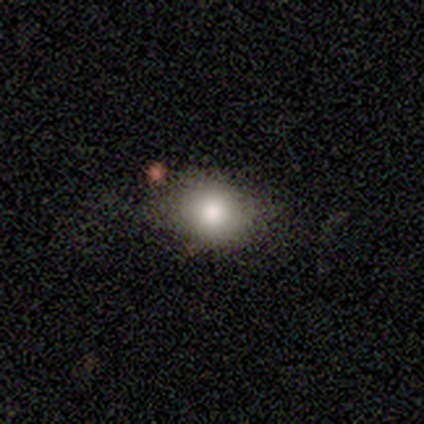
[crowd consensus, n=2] Q: Smooth or featured?
A: smooth (50%); tied with: featured or disk (50%)
Q: How rounded?
A: round (100%)
Q: Merging?
A: none (100%)